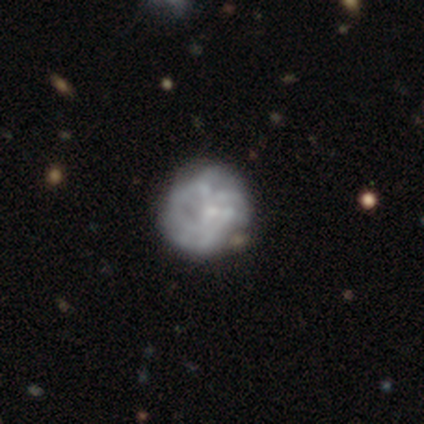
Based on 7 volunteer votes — smooth_or_featured: featured or disk (p=0.57) [alt: smooth p=0.29]
disk_edge_on: no (p=1.00)
bar: no (p=1.00)
has_spiral_arms: no (p=1.00)
bulge_size: none (p=0.50) [alt: moderate p=0.25]
merging: none (p=0.83) [alt: minor disturbance p=0.17]